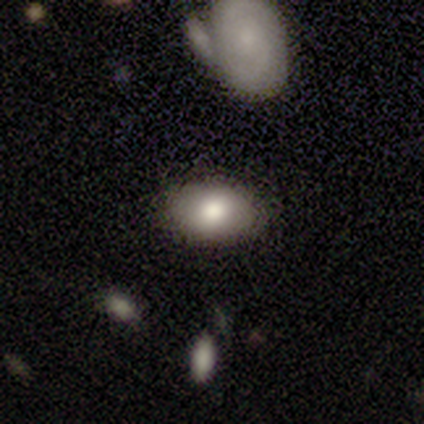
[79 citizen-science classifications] Smooth or featured? 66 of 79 (84%) said smooth. How rounded? 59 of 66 (89%) said in between. Merging? 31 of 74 (42%) said none.